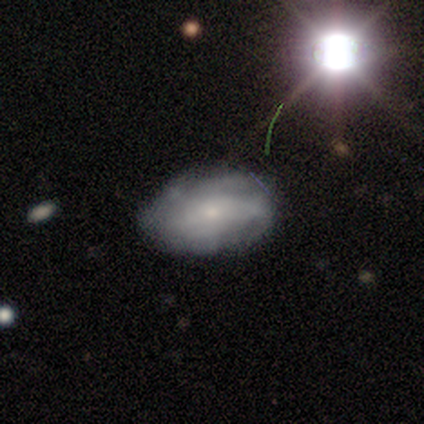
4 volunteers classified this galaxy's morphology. This appears to be a featured or disk galaxy (100%) with no bar (100%), tight (50%, tied with medium) spiral arms (50%, tied with no) and a small central bulge (75%). Merging: none (100%).